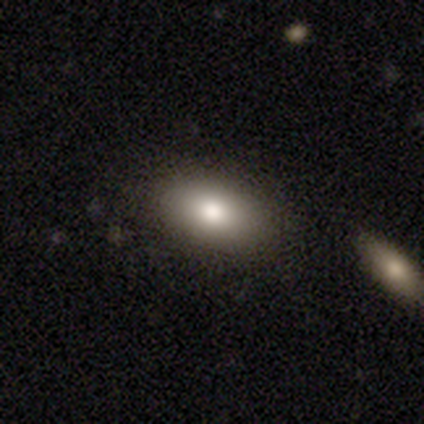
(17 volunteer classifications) Volunteers were most divided on "smooth or featured": smooth: 76%, featured or disk: 18%, star or artifact: 6%. More confident: how rounded — in between (85%); merging — none (81%).